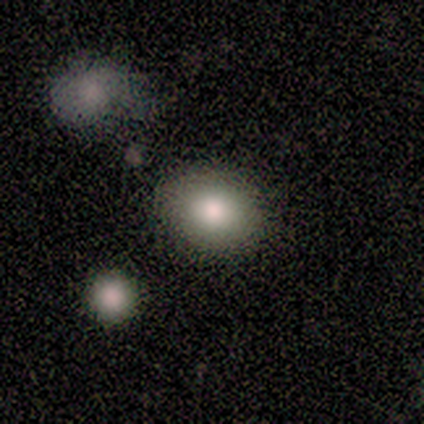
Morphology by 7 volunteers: Smooth or featured?
  - smooth: 100% *
  - featured or disk: 0%
  - star or artifact: 0%
How rounded?
  - in between: 57% *
  - round: 43%
  - cigar-shaped: 0%
Merging?
  - none: 57% *
  - minor disturbance: 29%
  - major disturbance: 14%
  - merger: 0%